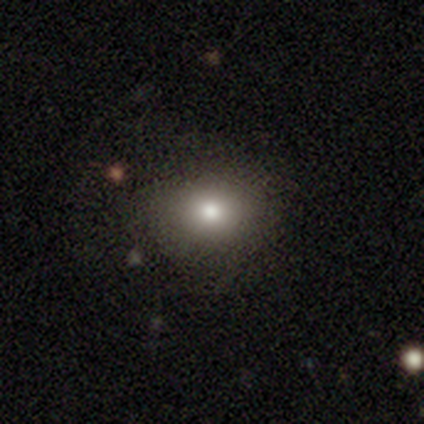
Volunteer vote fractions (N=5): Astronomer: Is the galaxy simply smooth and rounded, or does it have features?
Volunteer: smooth — 100%.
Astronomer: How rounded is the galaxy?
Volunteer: round — 60% (runner-up: in between, 40%).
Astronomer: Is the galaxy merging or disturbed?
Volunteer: none — 40%, tied with minor disturbance at 40%.